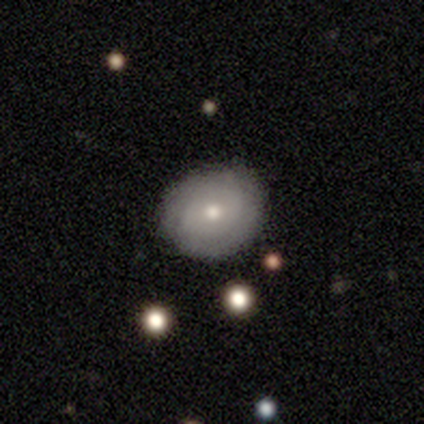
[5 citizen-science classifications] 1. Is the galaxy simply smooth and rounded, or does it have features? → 60% smooth, 40% featured or disk, 0% star or artifact.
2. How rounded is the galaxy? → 67% round, 33% in between, 0% cigar-shaped.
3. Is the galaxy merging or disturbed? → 60% none, 40% minor disturbance, 0% major disturbance, 0% merger.